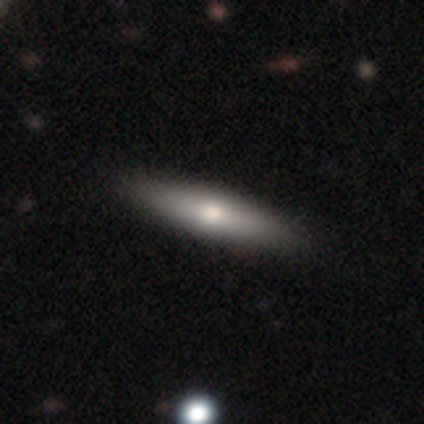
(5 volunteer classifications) This appears to be a featured or disk galaxy (60%) viewed edge-on (100%) with a rounded central bulge (100%). Merging: none (100%).